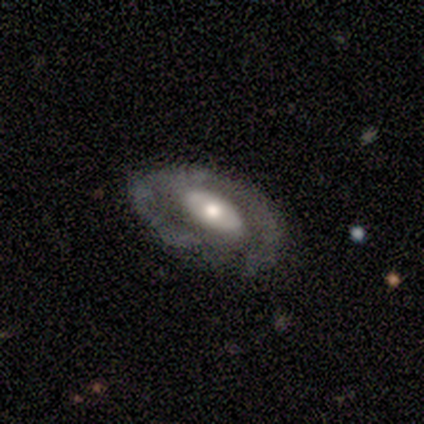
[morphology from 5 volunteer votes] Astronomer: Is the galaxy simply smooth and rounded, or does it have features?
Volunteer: featured or disk — 80%.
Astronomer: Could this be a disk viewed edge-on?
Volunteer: no — 100%.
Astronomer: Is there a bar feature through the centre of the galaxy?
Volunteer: weak — 50%.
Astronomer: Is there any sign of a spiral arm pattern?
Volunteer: yes — 100%.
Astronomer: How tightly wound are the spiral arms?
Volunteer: loose — 75%.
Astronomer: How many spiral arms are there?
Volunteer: can't tell — 75%.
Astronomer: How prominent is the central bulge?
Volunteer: moderate — 75%.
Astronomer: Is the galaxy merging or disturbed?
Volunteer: none — 80%.